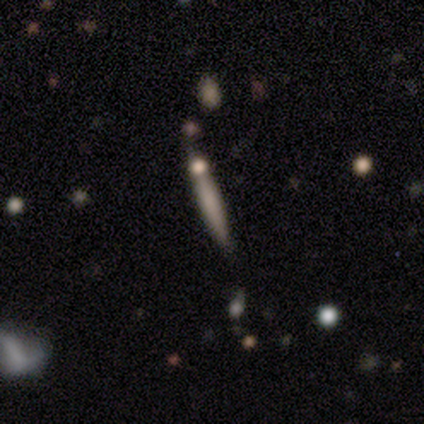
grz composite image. It shows a smooth galaxy with no disk features (100%) that is cigar-shaped (100%). Merging: none (80%).